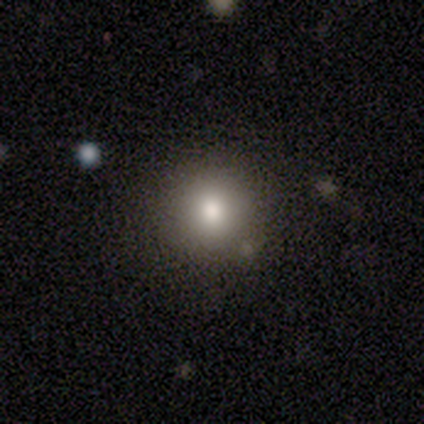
This is likely a smooth galaxy (60%). How rounded: clearly round (100%). Merging: clearly none (80%).